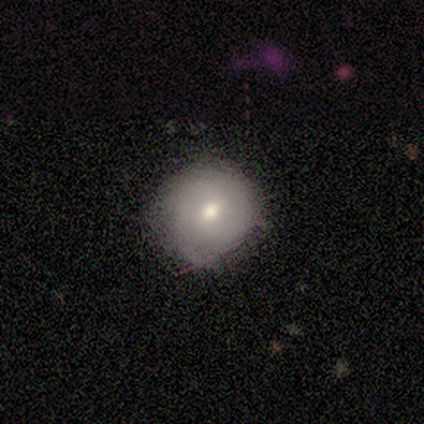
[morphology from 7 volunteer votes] Smooth or featured: smooth — 57% (featured or disk — 43%)
How rounded: round — 75% (in between — 25%)
Merging: none — 71% (minor disturbance — 29%)